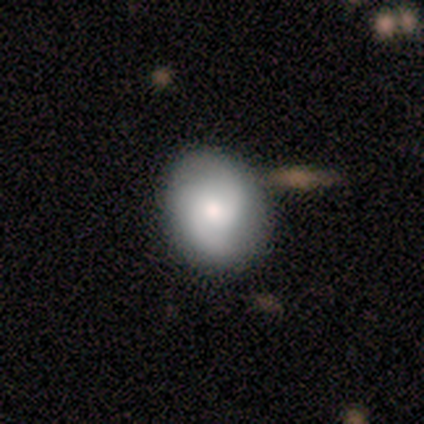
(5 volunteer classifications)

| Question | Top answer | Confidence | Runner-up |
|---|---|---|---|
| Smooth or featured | featured or disk | 60% | smooth (40%) |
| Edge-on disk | no | 100% | — |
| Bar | weak | 67% | no (33%) |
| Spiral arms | yes | 100% | — |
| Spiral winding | medium | 67% | tight (33%) |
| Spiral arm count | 2 | 67% | can't tell (33%) |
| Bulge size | moderate | 67% | small (33%) |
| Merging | none | 60% | merger (40%) |